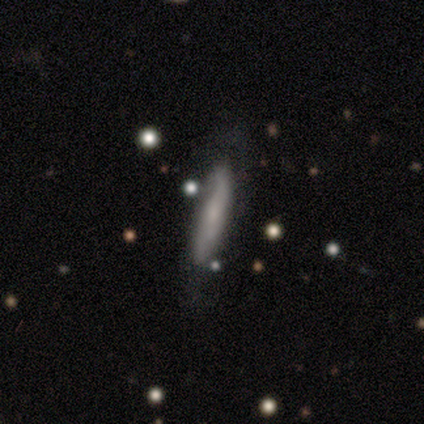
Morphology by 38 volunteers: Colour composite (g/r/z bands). It shows a smooth galaxy with no disk features (58%) that is cigar-shaped (95%). Merging: none (71%).